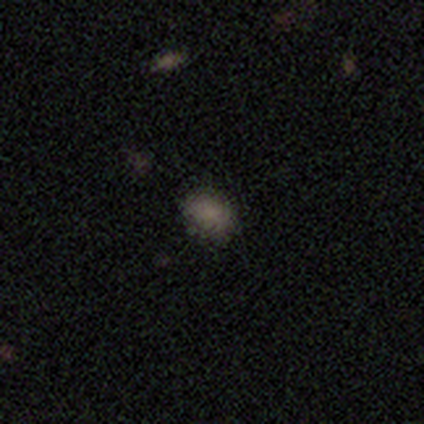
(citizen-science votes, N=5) This appears to be a smooth galaxy with no disk features (60%) that is round (100%). Merging: none (100%).